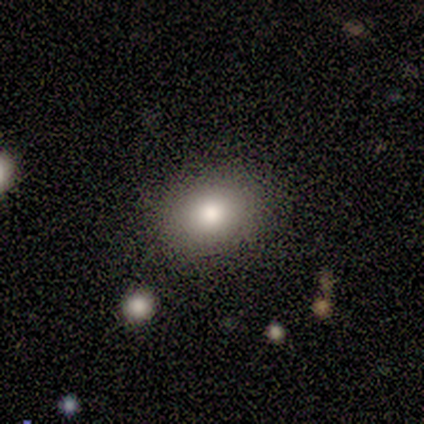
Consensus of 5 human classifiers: smooth-or-featured: smooth: 80% | featured or disk: 20% | star or artifact: 0%
  how-rounded: in between: 75% | round: 25% | cigar-shaped: 0%
  merging: none: 60% | minor disturbance: 40% | major disturbance: 0% | merger: 0%